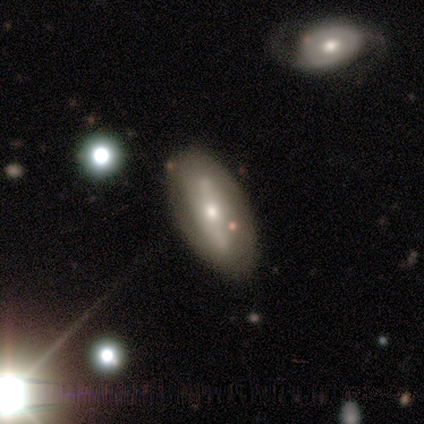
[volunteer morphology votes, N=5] featured or disk 60%, smooth 40%, star or artifact 0%. Down the decision tree: edge-on disk — no (100%); bar — strong (67%); spiral arms — yes (67%); spiral arm count — 2 (50%, tied with can't tell); spiral winding — tight (50%, tied with loose); bulge size — moderate (67%); merging — none (80%).